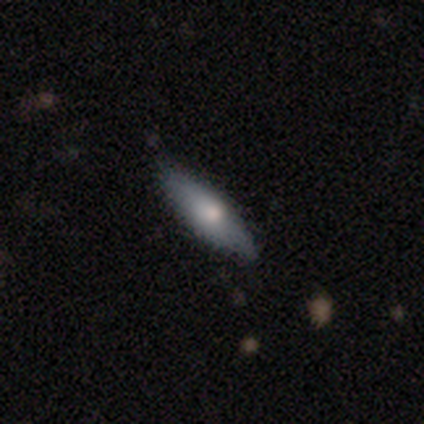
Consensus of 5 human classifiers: This is clearly a smooth galaxy (80%). How rounded: clearly cigar-shaped (100%). Merging: clearly none (100%).